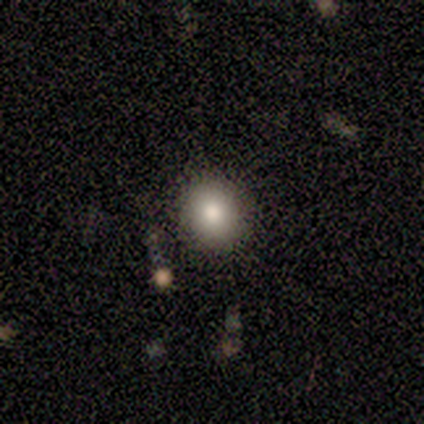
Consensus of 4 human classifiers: A smooth galaxy with no disk features (100%) that is round (100%).

Vote fractions:
- Smooth or featured? smooth: 100% / featured or disk: 0% / star or artifact: 0%
- How rounded? round: 100% / in between: 0% / cigar-shaped: 0%
- Merging? none: 100% / minor disturbance: 0% / major disturbance: 0% / merger: 0%